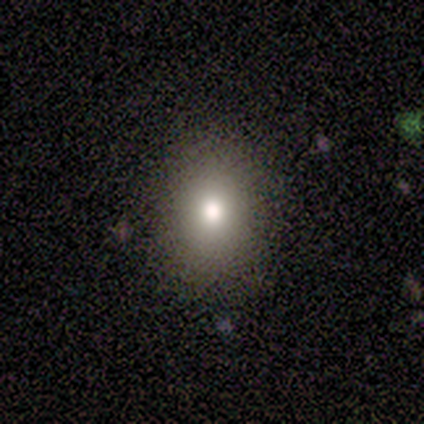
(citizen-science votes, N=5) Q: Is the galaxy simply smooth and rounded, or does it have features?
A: smooth — 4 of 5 (80%).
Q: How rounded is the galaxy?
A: in between — 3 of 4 (75%).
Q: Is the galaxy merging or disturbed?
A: none — 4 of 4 (100%).